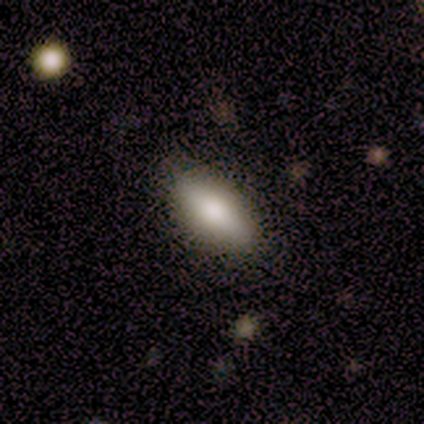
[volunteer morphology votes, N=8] Smooth or featured: smooth — 62% (featured or disk — 38%)
How rounded: in between — 100%
Merging: none — 100%